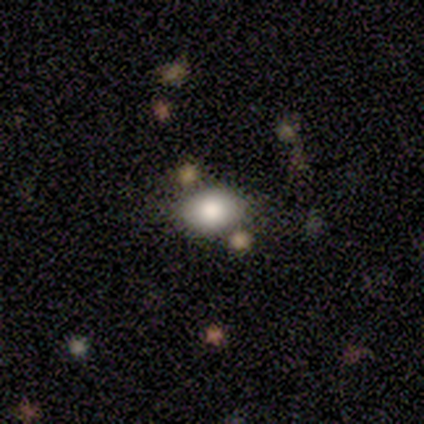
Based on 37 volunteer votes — A smooth galaxy with no disk features (89%) that is in between round and cigar-shaped (58%). Merging: none (71%).